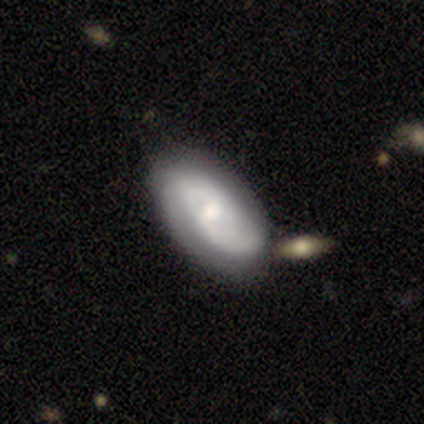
Q: Smooth or featured?
A: featured or disk (67%); runner-up: smooth (28%)
Q: Edge-on disk?
A: no (88%); runner-up: yes (12%)
Q: Bar?
A: no (65%); runner-up: weak (30%)
Q: Spiral arms?
A: yes (91%); runner-up: no (9%)
Q: Spiral winding?
A: tight (48%); runner-up: medium (33%)
Q: Spiral arm count?
A: 2 (52%); runner-up: 1 (24%)
Q: Bulge size?
A: moderate (39%); tied with: small (39%)
Q: Merging?
A: none (41%); runner-up: merger (14%)